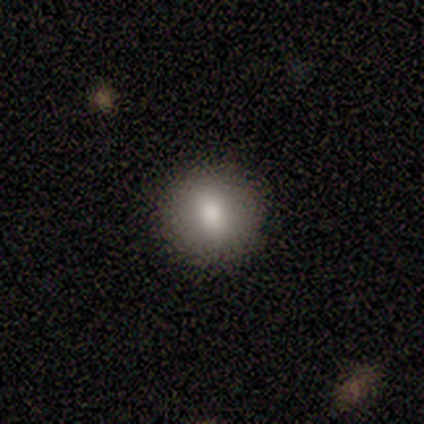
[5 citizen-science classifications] smooth-or-featured: smooth: 80% | star or artifact: 20% | featured or disk: 0%
  how-rounded: round: 100% | in between: 0% | cigar-shaped: 0%
  merging: none: 100% | minor disturbance: 0% | major disturbance: 0% | merger: 0%